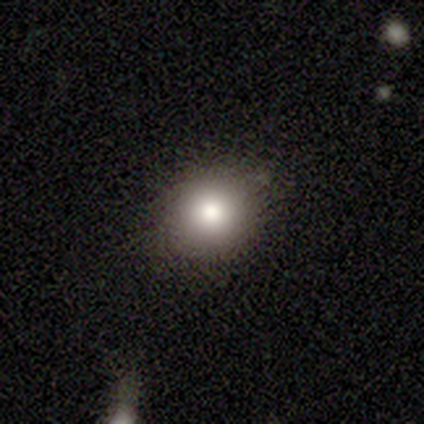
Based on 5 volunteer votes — smooth-or-featured: smooth: 100% | featured or disk: 0% | star or artifact: 0%
  how-rounded: round: 60% | in between: 40% | cigar-shaped: 0%
  merging: none: 100% | minor disturbance: 0% | major disturbance: 0% | merger: 0%